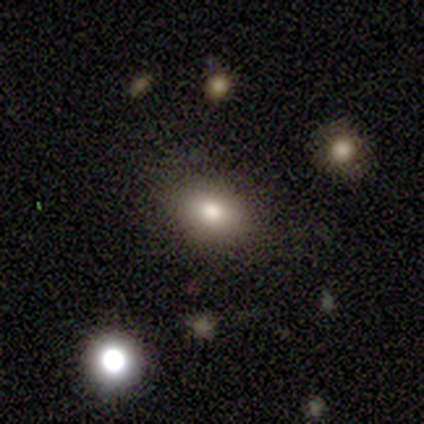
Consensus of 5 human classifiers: smooth_or_featured: smooth (p=1.00)
how_rounded: in between (p=0.60) [alt: round p=0.40]
merging: none (p=0.80) [alt: minor disturbance p=0.20]